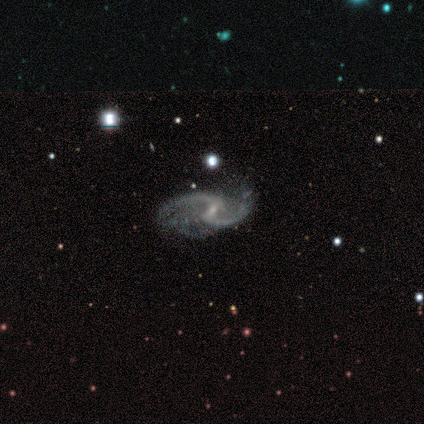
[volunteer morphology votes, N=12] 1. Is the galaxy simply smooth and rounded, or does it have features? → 92% featured or disk, 8% star or artifact, 0% smooth.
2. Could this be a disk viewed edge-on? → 100% no, 0% yes.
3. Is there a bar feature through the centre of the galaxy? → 64% weak, 27% no, 9% strong.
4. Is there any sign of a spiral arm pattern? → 91% yes, 9% no.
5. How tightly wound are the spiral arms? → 50% medium (tied), 50% loose (tied), 0% tight.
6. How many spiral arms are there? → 100% 2, 0% 1, 0% 3, 0% 4, 0% more than 4, 0% can't tell.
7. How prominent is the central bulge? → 73% small, 27% none, 0% dominant, 0% large, 0% moderate.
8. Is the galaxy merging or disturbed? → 82% none, 18% minor disturbance, 0% major disturbance, 0% merger.